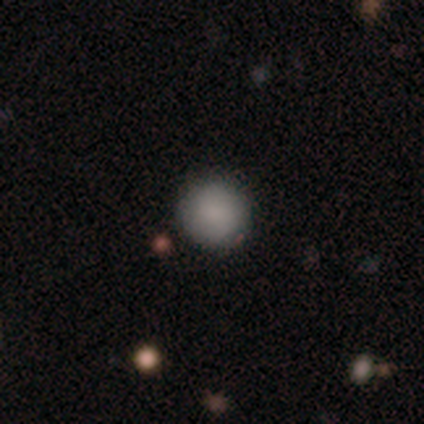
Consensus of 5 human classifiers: Smooth or featured?
  - smooth: 100% *
  - featured or disk: 0%
  - star or artifact: 0%
How rounded?
  - round: 100% *
  - in between: 0%
  - cigar-shaped: 0%
Merging?
  - none: 100% *
  - minor disturbance: 0%
  - major disturbance: 0%
  - merger: 0%